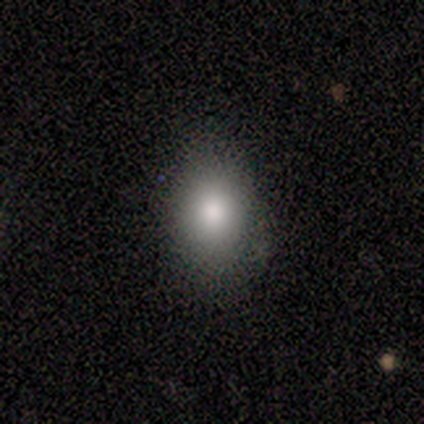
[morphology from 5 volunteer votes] Smooth or featured?
  - smooth: 80% *
  - star or artifact: 20%
  - featured or disk: 0%
How rounded?
  - round: 50% * (tied)
  - in between: 50% * (tied)
  - cigar-shaped: 0%
Merging?
  - none: 100% *
  - minor disturbance: 0%
  - major disturbance: 0%
  - merger: 0%